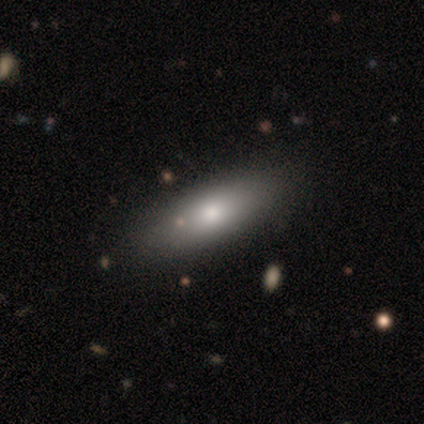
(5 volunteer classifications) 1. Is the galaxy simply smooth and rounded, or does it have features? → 100% smooth, 0% featured or disk, 0% star or artifact.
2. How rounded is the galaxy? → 60% in between, 20% round, 20% cigar-shaped.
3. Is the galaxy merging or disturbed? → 80% none, 20% merger, 0% minor disturbance, 0% major disturbance.